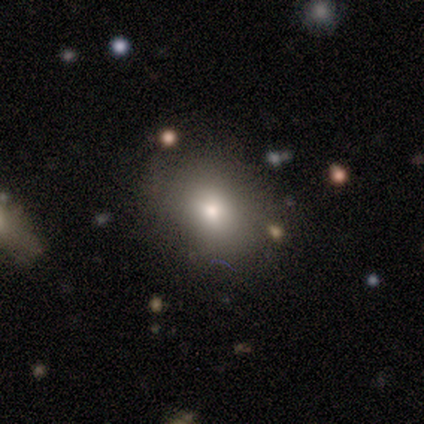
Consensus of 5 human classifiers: smooth 100%, featured or disk 0%, star or artifact 0%. Down the decision tree: how rounded — in between (60%); merging — none (60%).